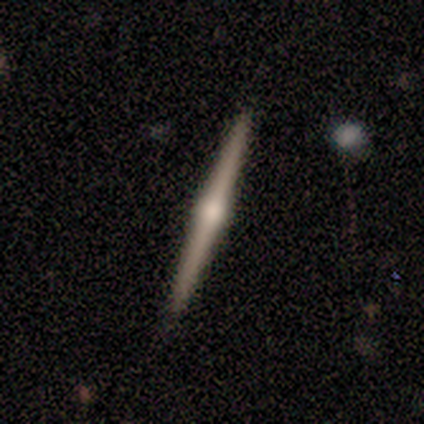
A featured or disk galaxy (80%) viewed edge-on (100%) with a rounded central bulge (75%). Merging: none (80%).